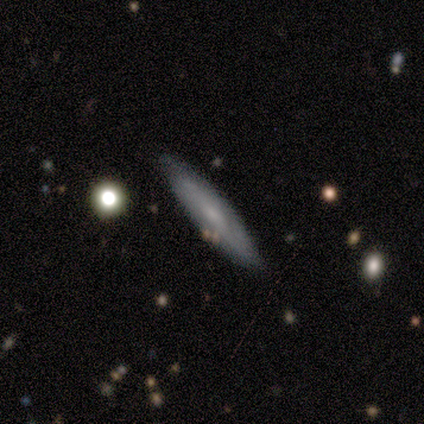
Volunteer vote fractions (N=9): Overall: featured or disk (56%; smooth 44%). Edge-on disk: no (60%; yes 40%). Bar: no (67%; weak 33%). Spiral arms: yes (67%; no 33%). Spiral arm count: 2 (50%, tied with can't tell). Spiral winding: tight (50%, tied with loose). Bulge size: small (67%; moderate 33%). Merging: none (78%).